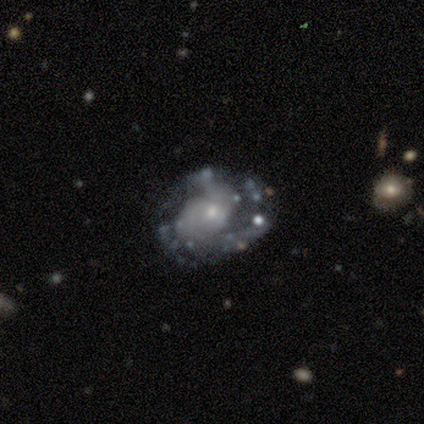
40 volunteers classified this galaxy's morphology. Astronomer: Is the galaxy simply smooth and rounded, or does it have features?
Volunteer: featured or disk — 82%.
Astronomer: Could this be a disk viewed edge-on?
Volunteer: no — 100%.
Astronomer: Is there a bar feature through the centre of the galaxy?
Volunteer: no — 79%.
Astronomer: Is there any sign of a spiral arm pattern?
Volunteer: yes — 79%.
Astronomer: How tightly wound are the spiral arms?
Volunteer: loose — 50% (runner-up: medium, 38%).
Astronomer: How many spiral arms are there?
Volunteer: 2 — 38% (runner-up: 3, 23%).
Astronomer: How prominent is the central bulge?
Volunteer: small — 64%.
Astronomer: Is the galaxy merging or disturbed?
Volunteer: none — 56%.